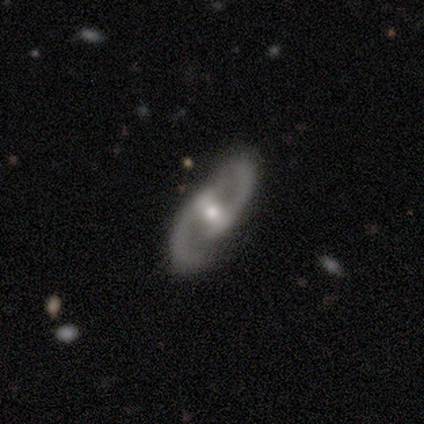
Smooth or featured?
  - featured or disk: 84% *
  - smooth: 13%
  - star or artifact: 3%
Edge-on disk?
  - no: 91% *
  - yes: 9%
Bar?
  - strong: 48% *
  - weak: 34%
  - no: 17%
Spiral arms?
  - yes: 93% *
  - no: 7%
Spiral winding?
  - medium: 59% *
  - loose: 30%
  - tight: 11%
Spiral arm count?
  - 2: 96% *
  - 1: 4%
  - 3: 0%
  - 4: 0%
  - more than 4: 0%
  - can't tell: 0%
Bulge size?
  - moderate: 59% *
  - small: 38%
  - large: 3%
  - dominant: 0%
  - none: 0%
Merging?
  - none: 86% *
  - minor disturbance: 8%
  - major disturbance: 3%
  - merger: 3%